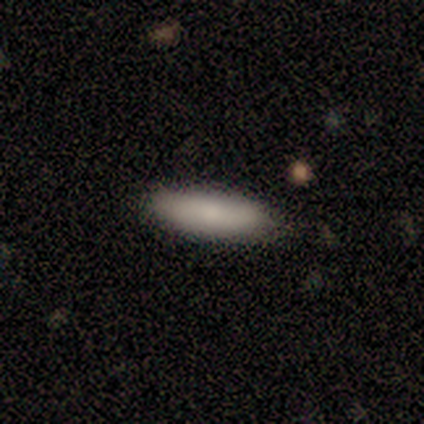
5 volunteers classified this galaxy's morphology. A smooth galaxy with no disk features (60%) that is cigar-shaped (67%).

Vote fractions:
- Smooth or featured? smooth: 60% / featured or disk: 40% / star or artifact: 0%
- How rounded? cigar-shaped: 67% / in between: 33% / round: 0%
- Merging? none: 60% / minor disturbance: 40% / major disturbance: 0% / merger: 0%